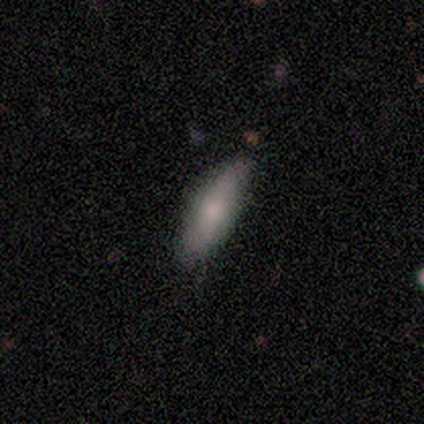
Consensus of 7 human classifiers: This is likely a smooth galaxy (71%). How rounded: clearly cigar-shaped (80%). Merging: clearly none (100%).